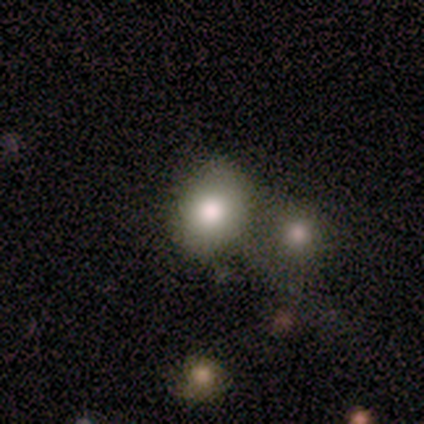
This appears to be a smooth galaxy with no disk features (80%) that is round (50%, tied with in between). Merging: none (75%).